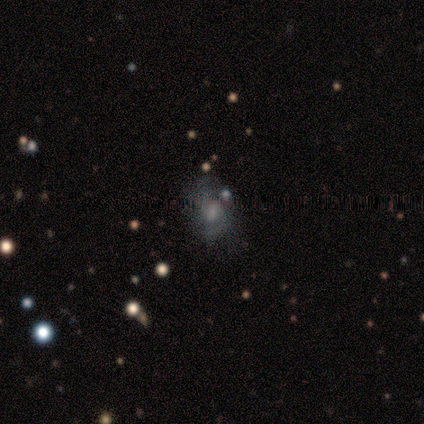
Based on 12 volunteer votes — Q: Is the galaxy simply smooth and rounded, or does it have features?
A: smooth — 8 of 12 (67%).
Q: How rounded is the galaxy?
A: in between — 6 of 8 (75%).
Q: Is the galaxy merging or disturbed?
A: none — 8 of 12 (67%).